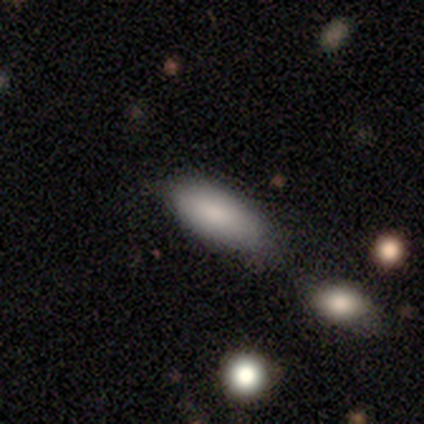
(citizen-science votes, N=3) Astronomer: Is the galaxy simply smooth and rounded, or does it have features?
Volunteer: smooth — 67%.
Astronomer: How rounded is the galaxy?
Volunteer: in between — 100%.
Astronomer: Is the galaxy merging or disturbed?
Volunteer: none — 100%.